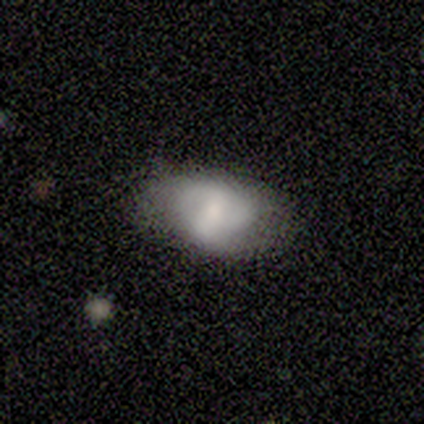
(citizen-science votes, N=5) A smooth galaxy with no disk features (60%) that is in between round and cigar-shaped (100%). Merging: none (100%).